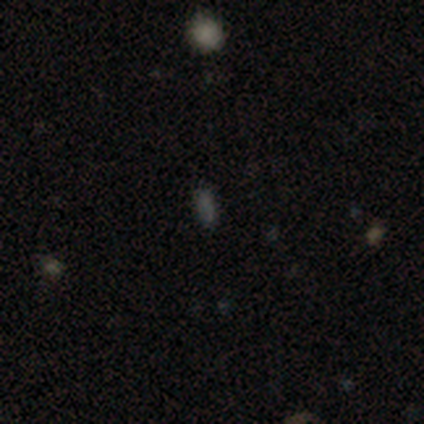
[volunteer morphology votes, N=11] smooth 73%, star or artifact 27%, featured or disk 0%. Down the decision tree: how rounded — in between (88%); merging — none (88%).